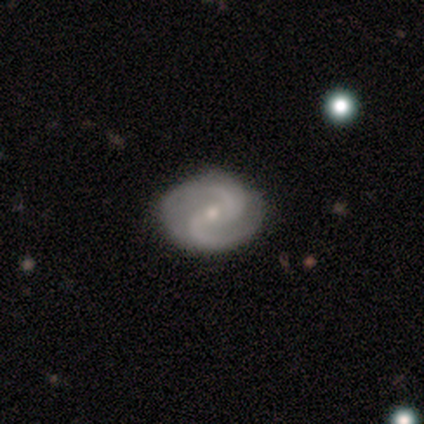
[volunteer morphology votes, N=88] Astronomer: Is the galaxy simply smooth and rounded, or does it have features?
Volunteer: featured or disk — 89%.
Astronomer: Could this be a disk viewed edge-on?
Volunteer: no — 97%.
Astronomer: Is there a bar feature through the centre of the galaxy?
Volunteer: weak — 49% (runner-up: no, 43%).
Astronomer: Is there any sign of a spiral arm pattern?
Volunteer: yes — 99%.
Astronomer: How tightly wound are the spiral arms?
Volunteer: medium — 56%.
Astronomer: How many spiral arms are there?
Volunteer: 2 — 97%.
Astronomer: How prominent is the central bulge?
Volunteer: small — 74%.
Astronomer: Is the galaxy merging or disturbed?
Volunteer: none — 89%.